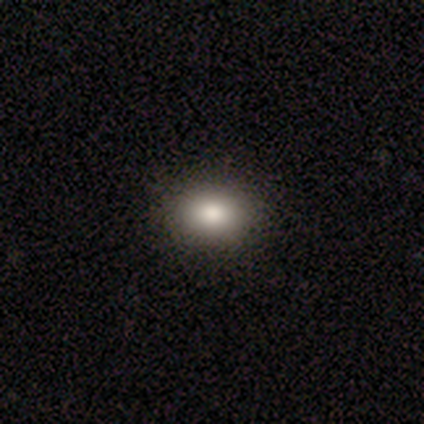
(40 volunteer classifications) This is clearly a smooth galaxy (88%). How rounded: likely in between (63%). Merging: possibly none (51%).